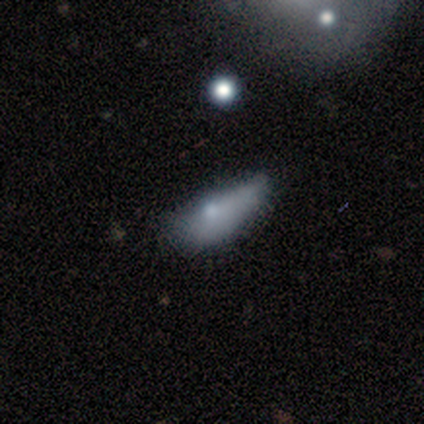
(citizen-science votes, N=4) smooth_or_featured: smooth (p=0.75) [alt: featured or disk p=0.25]
how_rounded: in between (p=1.00)
merging: minor disturbance (p=0.50) [alt: none p=0.25]